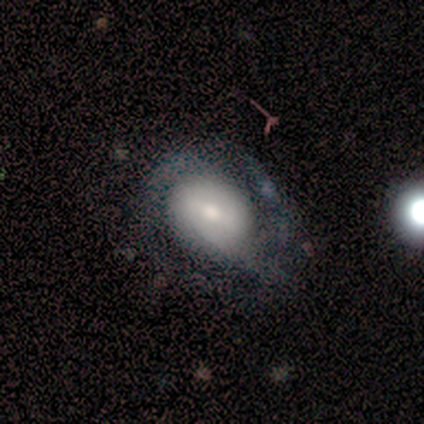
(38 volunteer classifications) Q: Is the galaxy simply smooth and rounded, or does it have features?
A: featured or disk — 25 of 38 (66%).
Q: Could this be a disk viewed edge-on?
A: no — 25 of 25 (100%).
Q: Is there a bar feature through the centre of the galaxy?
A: no — 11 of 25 (44%).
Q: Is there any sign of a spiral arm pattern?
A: yes — 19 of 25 (76%).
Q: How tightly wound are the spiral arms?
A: medium — 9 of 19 (47%).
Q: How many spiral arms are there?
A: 2 — 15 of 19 (79%).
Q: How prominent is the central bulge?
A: moderate — 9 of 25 (36%).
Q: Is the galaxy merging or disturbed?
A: none — 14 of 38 (37%).